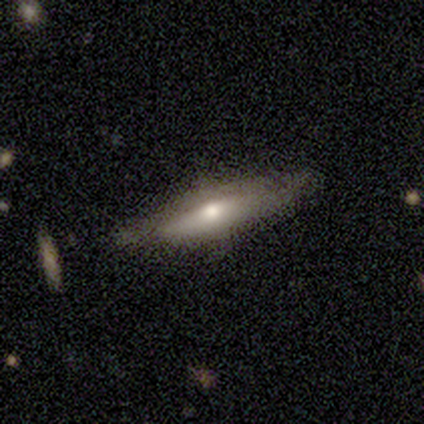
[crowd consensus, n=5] Q: Smooth or featured?
A: featured or disk (80%); runner-up: smooth (20%)
Q: Edge-on disk?
A: yes (100%)
Q: Edge-on bulge?
A: rounded (75%); runner-up: boxy (25%)
Q: Merging?
A: none (100%)